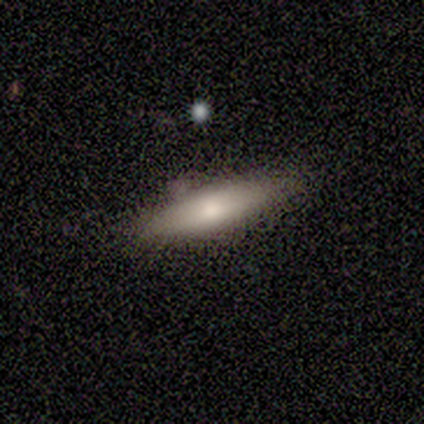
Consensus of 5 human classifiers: A smooth galaxy with no disk features (60%) that is cigar-shaped (67%). Merging: none (80%).